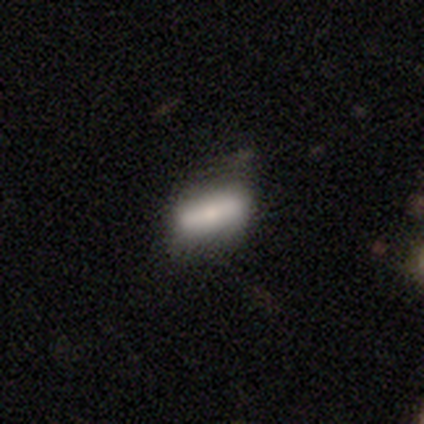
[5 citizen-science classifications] Smooth or featured? 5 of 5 (100%) said smooth. How rounded? 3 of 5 (60%) said cigar-shaped. Merging? 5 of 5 (100%) said none.